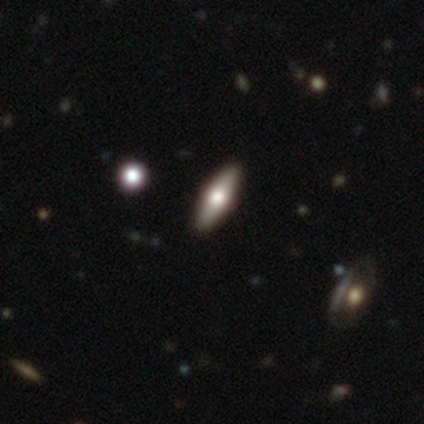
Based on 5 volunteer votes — Smooth or featured: featured or disk — 60% (smooth — 40%)
Edge-on disk: yes — 67% (no — 33%)
Edge-on bulge: rounded — 100%
Merging: none — 80% (major disturbance — 20%)